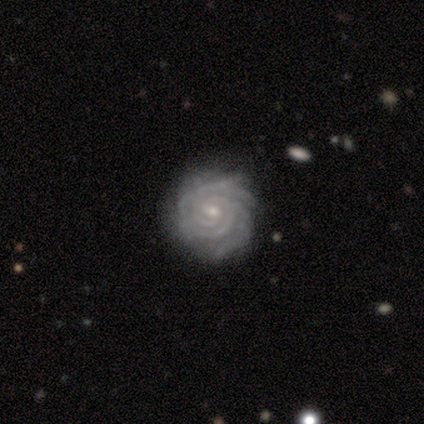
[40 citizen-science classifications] Q: Smooth or featured?
A: featured or disk (98%); runner-up: smooth (2%)
Q: Edge-on disk?
A: no (100%)
Q: Bar?
A: no (54%); runner-up: weak (46%)
Q: Spiral arms?
A: yes (100%)
Q: Spiral winding?
A: tight (90%); runner-up: medium (10%)
Q: Spiral arm count?
A: 3 (26%); runner-up: 4 (23%)
Q: Bulge size?
A: small (72%); runner-up: moderate (26%)
Q: Merging?
A: none (48%); runner-up: minor disturbance (18%)